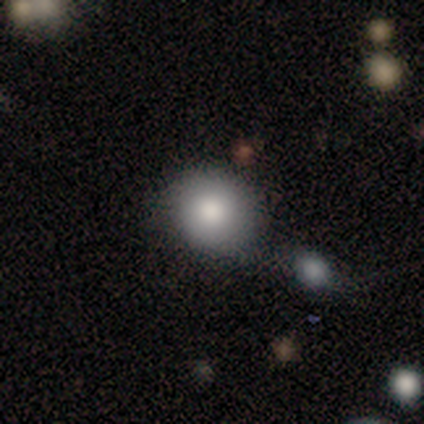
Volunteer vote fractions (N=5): Q: Smooth or featured?
A: smooth (60%); runner-up: featured or disk (20%)
Q: How rounded?
A: round (100%)
Q: Merging?
A: none (75%); runner-up: minor disturbance (25%)